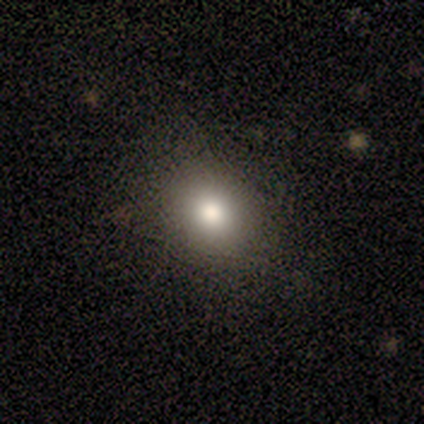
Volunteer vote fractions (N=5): Q: Smooth or featured?
A: smooth (80%); runner-up: star or artifact (20%)
Q: How rounded?
A: round (75%); runner-up: in between (25%)
Q: Merging?
A: none (75%); runner-up: minor disturbance (25%)